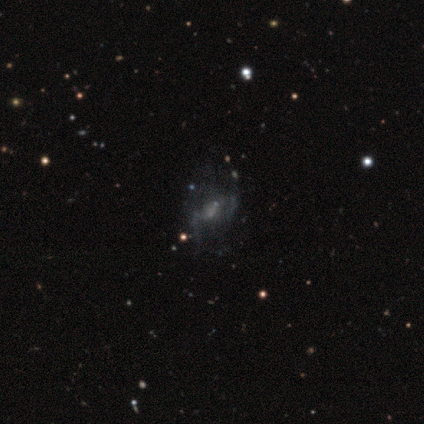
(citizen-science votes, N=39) Q: Smooth or featured?
A: featured or disk (74%); runner-up: star or artifact (21%)
Q: Edge-on disk?
A: no (100%)
Q: Bar?
A: no (59%); runner-up: weak (31%)
Q: Spiral arms?
A: no (52%); runner-up: yes (48%)
Q: Bulge size?
A: none (59%); runner-up: small (31%)
Q: Merging?
A: none (45%); runner-up: major disturbance (26%)